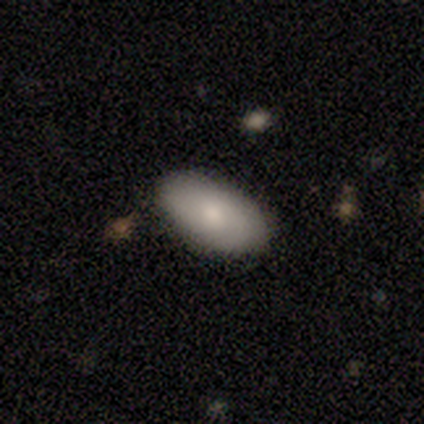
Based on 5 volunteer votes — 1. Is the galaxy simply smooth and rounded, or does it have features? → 80% smooth, 20% featured or disk, 0% star or artifact.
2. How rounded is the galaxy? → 100% in between, 0% round, 0% cigar-shaped.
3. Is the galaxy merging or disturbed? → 100% none, 0% minor disturbance, 0% major disturbance, 0% merger.